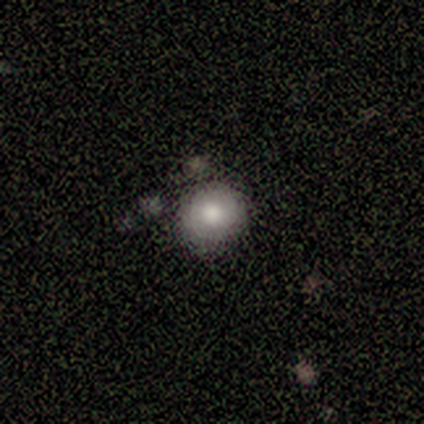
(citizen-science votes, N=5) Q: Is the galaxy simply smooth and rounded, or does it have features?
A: smooth — 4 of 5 (80%).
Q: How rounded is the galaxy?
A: round — 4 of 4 (100%).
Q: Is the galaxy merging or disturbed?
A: none — 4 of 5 (80%).